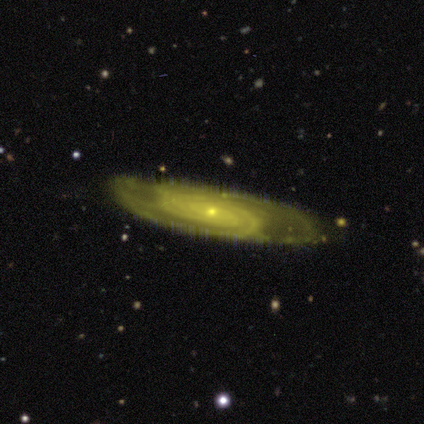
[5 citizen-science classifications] Volunteers were most divided on "merging": none: 60%, minor disturbance: 40%, major disturbance: 0%, merger: 0%. Remaining: smooth or featured — featured or disk (100%); edge-on disk — no (100%); spiral arms — yes (100%); spiral winding — tight (100%); bulge size — small (100%); bar — no (80%); spiral arm count — can't tell (40%).